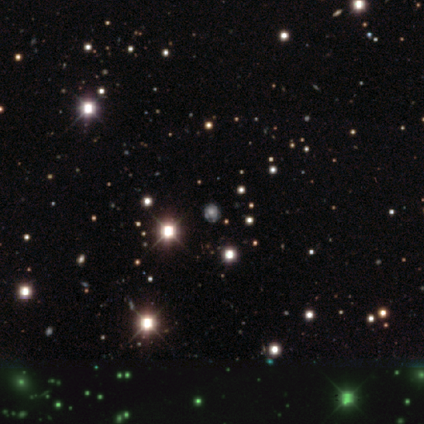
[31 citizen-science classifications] smooth-or-featured: star or artifact: 48% | smooth: 29% | featured or disk: 23%